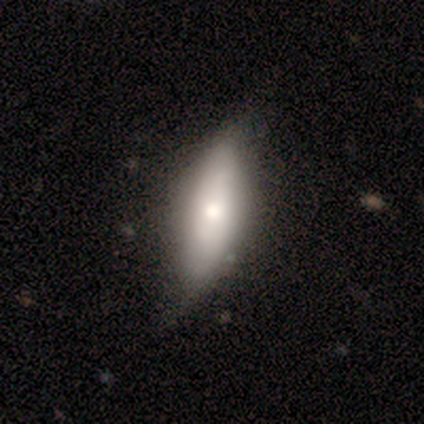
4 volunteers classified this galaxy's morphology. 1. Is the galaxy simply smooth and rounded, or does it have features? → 75% smooth, 25% featured or disk, 0% star or artifact.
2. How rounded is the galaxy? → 67% cigar-shaped, 33% in between, 0% round.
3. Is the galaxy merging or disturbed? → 75% none, 25% minor disturbance, 0% major disturbance, 0% merger.